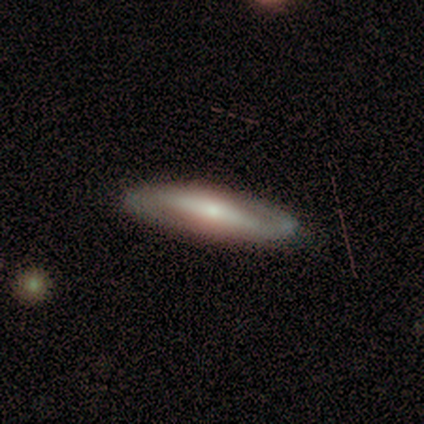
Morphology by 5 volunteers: featured or disk 80%, smooth 20%, star or artifact 0%. Down the decision tree: edge-on disk — yes (50%, tied with no); edge-on bulge — rounded (100%); merging — none (100%).